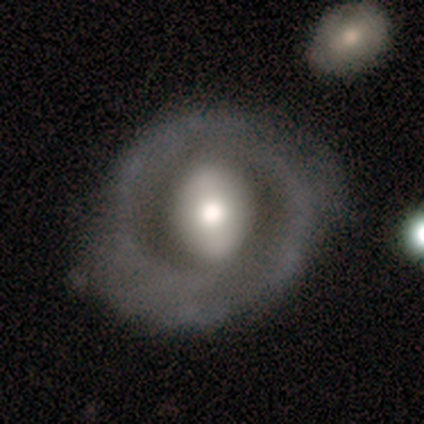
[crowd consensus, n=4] smooth_or_featured: smooth (p=0.50) [tied with: featured or disk p=0.50]
how_rounded: in between (p=1.00)
merging: none (p=0.50) [alt: minor disturbance p=0.25]